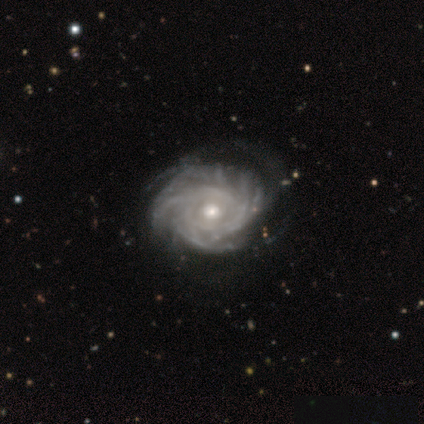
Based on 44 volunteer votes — Morphology: type=featured or disk (98%); edge-on=no (98%); bar=no (83%); spiral arms=yes (95%); winding=tight (75%); arm count=more than 4 (42%); bulge=moderate (62%); merging=none (53%).